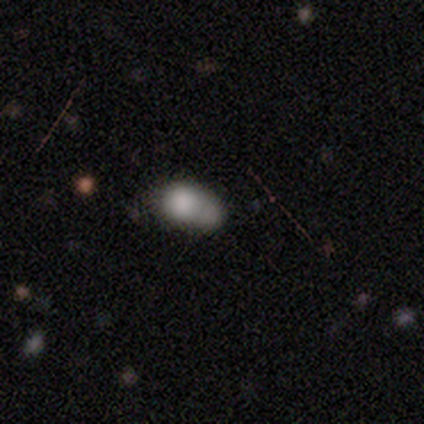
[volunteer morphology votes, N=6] Smooth or featured? 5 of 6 (83%) said smooth. How rounded? 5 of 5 (100%) said in between. Merging? 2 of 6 (33%, tied with merger) said minor disturbance.